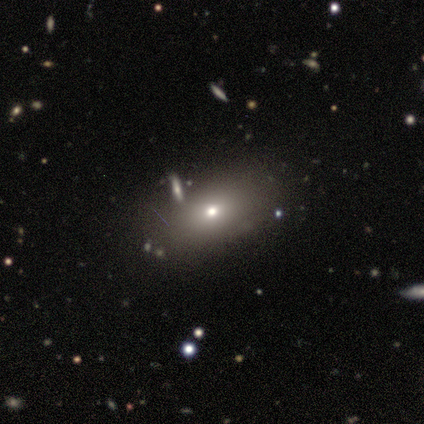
Q: Smooth or featured?
A: smooth (60%); runner-up: featured or disk (20%)
Q: How rounded?
A: in between (67%); runner-up: round (33%)
Q: Merging?
A: none (100%)